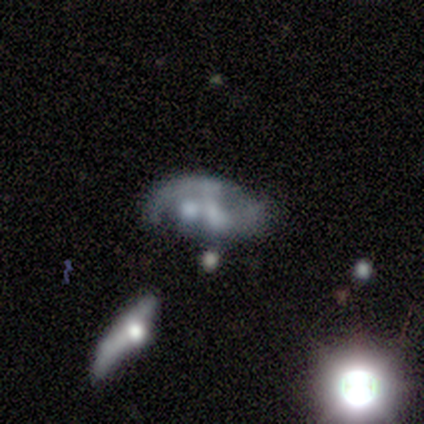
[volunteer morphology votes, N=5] type=featured or disk (60%); edge-on=no (67%); bar=weak (50%, tied with no); spiral arms=no (100%); bulge=moderate (50%, tied with small); merging=merger (67%).